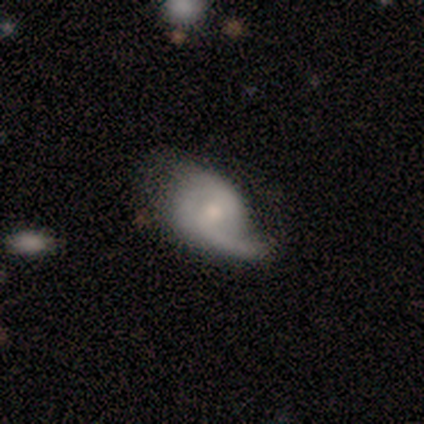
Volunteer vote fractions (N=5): A smooth galaxy with no disk features (60%) that is in between round and cigar-shaped (100%).

Vote fractions:
- Smooth or featured? smooth: 60% / featured or disk: 40% / star or artifact: 0%
- How rounded? in between: 100% / round: 0% / cigar-shaped: 0%
- Merging? none: 40% (tied) / major disturbance: 40% (tied) / minor disturbance: 20% / merger: 0%